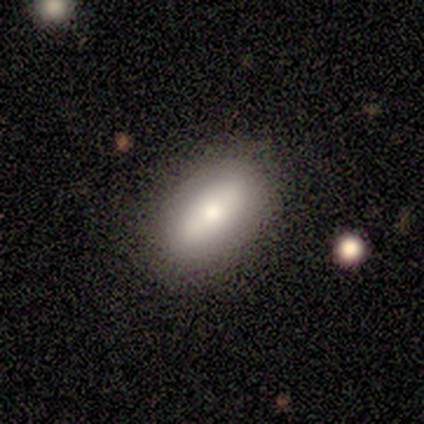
Smooth or featured? 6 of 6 (100%) said smooth. How rounded? 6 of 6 (100%) said in between. Merging? 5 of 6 (83%) said none.